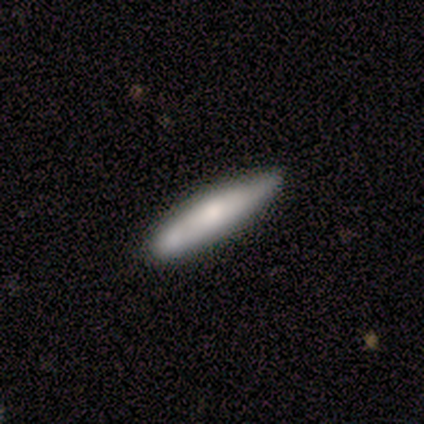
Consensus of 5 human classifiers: Smooth or featured: smooth — 60% (featured or disk — 20%)
How rounded: cigar-shaped — 100%
Merging: none — 50% (minor disturbance — 25%)